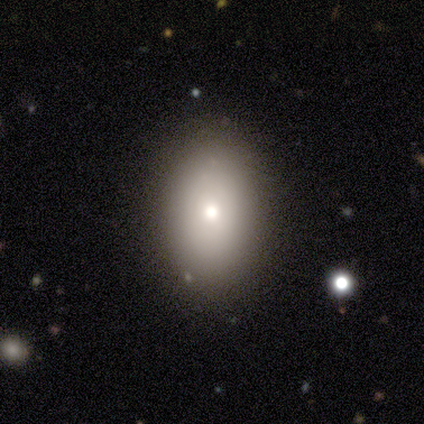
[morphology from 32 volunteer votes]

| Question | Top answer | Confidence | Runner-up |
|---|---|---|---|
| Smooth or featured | smooth | 72% | featured or disk (25%) |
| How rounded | in between | 65% | round (22%) |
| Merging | none | 74% | minor disturbance (19%) |